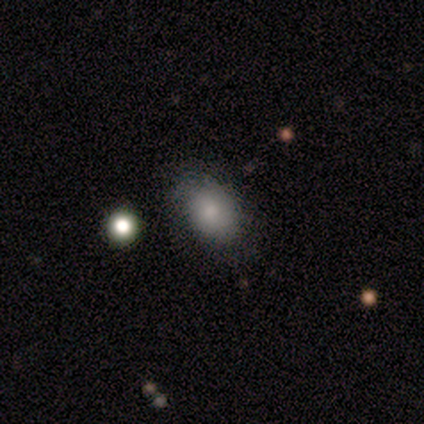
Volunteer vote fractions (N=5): smooth 60%, featured or disk 20%, star or artifact 20%. Down the decision tree: how rounded — in between (67%); merging — none (100%).